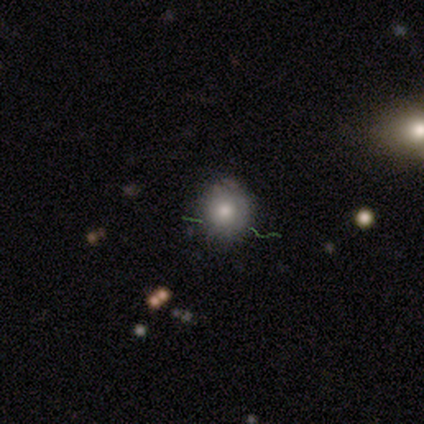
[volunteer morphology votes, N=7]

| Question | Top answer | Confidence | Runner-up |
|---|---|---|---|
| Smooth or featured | smooth | 71% | featured or disk (29%) |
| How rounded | round | 100% | — |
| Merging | none | 71% | minor disturbance (29%) |